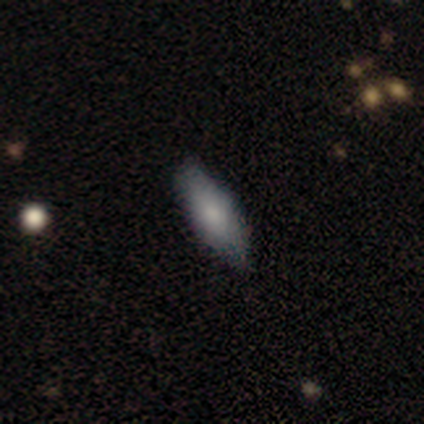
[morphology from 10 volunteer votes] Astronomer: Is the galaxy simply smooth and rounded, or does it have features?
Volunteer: smooth — 80%.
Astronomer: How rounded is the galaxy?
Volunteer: in between — 88%.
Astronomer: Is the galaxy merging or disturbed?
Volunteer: none — 100%.